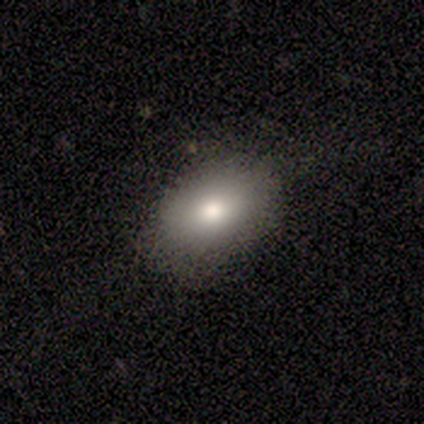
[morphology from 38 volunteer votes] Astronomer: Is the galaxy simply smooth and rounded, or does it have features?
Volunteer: smooth — 76%.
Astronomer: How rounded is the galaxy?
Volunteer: in between — 83%.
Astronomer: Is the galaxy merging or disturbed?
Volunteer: none — 89%.